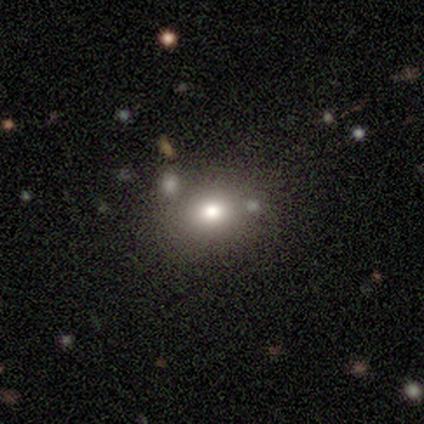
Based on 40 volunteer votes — smooth_or_featured: smooth (p=0.70) [alt: star or artifact p=0.23]
how_rounded: in between (p=0.64) [alt: round p=0.32]
merging: none (p=0.68) [alt: minor disturbance p=0.16]